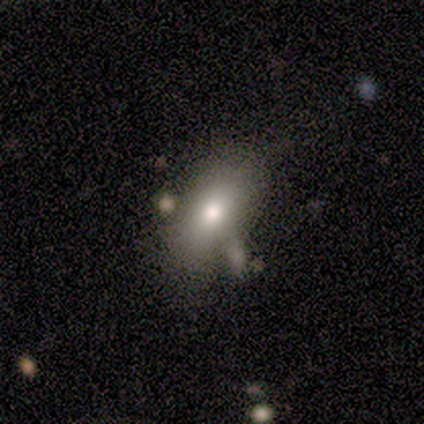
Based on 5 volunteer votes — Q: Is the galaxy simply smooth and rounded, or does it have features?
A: smooth — 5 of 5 (100%).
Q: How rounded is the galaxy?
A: in between — 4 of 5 (80%).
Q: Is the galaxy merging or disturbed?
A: none — 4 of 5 (80%).